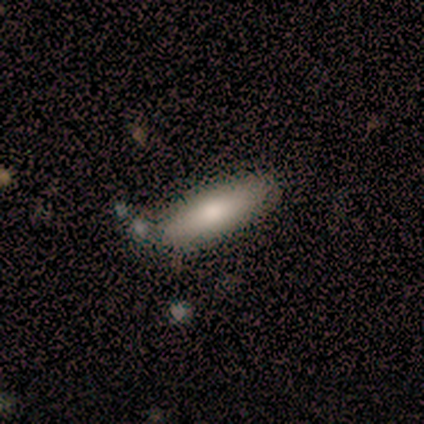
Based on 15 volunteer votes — Volunteers were most divided on "how rounded": in between: 53%, cigar-shaped: 47%, round: 0%. More confident: smooth or featured — smooth (100%); merging — none (80%).